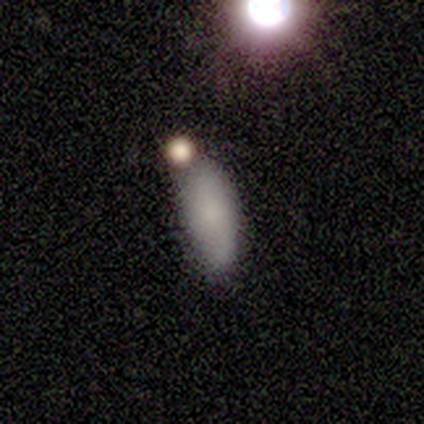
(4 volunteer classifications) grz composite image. It shows a smooth galaxy with no disk features (100%) that is in between round and cigar-shaped (75%). Merging: none (50%).